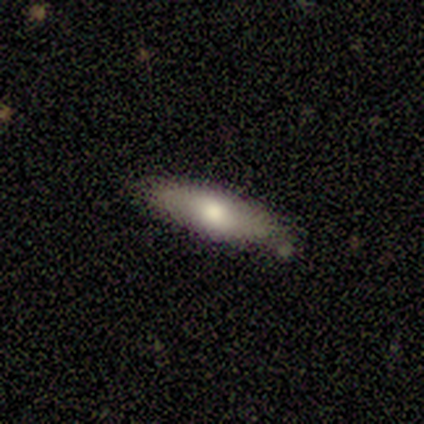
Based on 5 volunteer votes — Smooth or featured? smooth (80%)
How rounded? in between (75%)
Merging? none (80%)